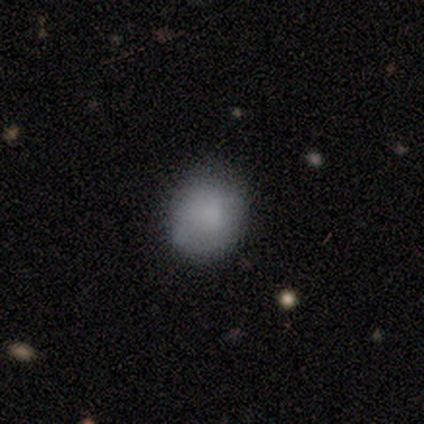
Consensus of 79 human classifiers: smooth-or-featured: smooth: 90% | featured or disk: 5% | star or artifact: 5%
  how-rounded: round: 77% | in between: 23% | cigar-shaped: 0%
  merging: none: 39% | minor disturbance: 11% | major disturbance: 5% | merger: 0%